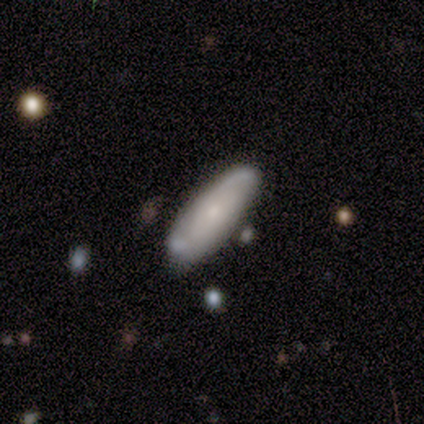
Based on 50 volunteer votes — Smooth or featured: featured or disk — 60% (smooth — 38%)
Edge-on disk: no — 77% (yes — 23%)
Bar: no — 70% (weak — 17%)
Spiral arms: yes — 61% (no — 39%)
Spiral winding: tight — 36% (tied with loose — 36%)
Spiral arm count: 2 — 93% (can't tell — 7%)
Bulge size: small — 74% (moderate — 22%)
Merging: none — 73% (minor disturbance — 16%)